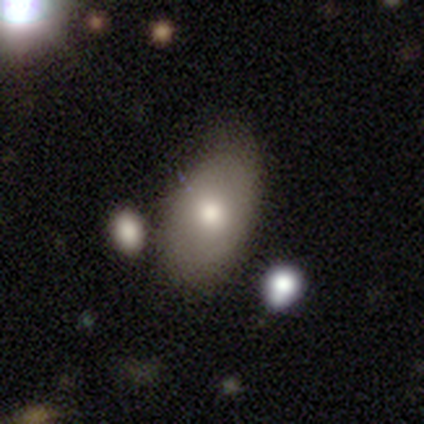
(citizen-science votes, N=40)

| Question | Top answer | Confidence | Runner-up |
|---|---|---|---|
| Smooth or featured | smooth | 68% | featured or disk (28%) |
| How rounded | in between | 85% | round (11%) |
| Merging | none | 55% | minor disturbance (37%) |